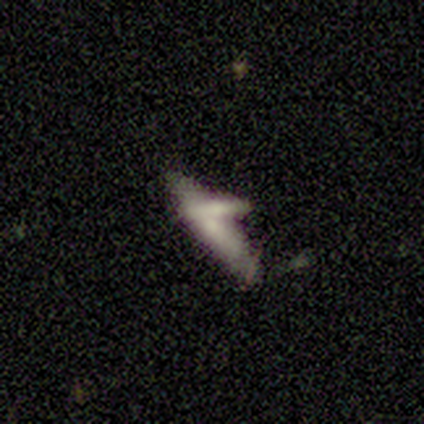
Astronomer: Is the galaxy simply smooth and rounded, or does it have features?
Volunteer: featured or disk — 60% (runner-up: smooth, 40%).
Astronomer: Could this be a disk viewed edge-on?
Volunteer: yes — 67%.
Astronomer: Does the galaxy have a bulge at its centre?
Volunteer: none — 50%, tied with rounded at 50%.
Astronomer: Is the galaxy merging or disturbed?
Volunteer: none — 60%.